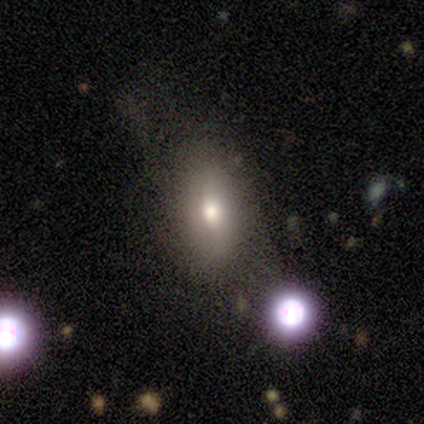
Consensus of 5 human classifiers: This appears to be a smooth galaxy with no disk features (80%) that is in between round and cigar-shaped (100%). Merging: none (60%).